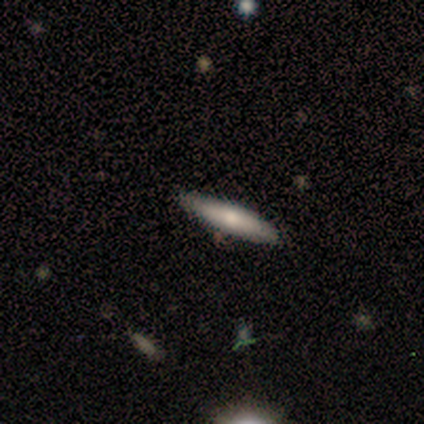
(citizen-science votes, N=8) Smooth or featured: smooth — 62% (featured or disk — 38%)
How rounded: cigar-shaped — 100%
Merging: none — 88% (minor disturbance — 12%)